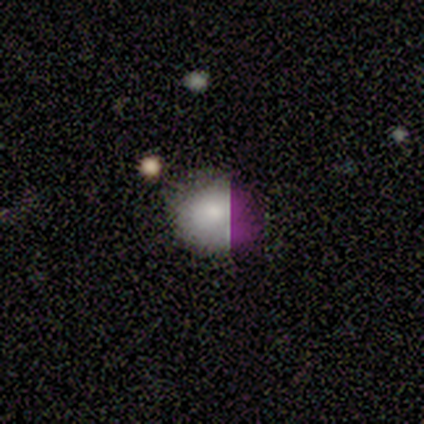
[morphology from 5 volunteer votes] Smooth or featured: smooth — 80% (star or artifact — 20%)
How rounded: round — 50% (tied with in between — 50%)
Merging: none — 50% (minor disturbance — 25%)